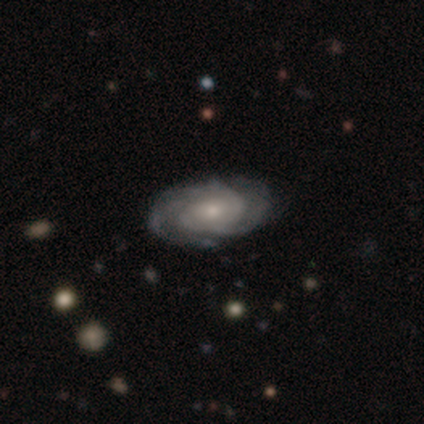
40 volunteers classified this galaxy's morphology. featured or disk 85%, smooth 8%, star or artifact 8%. Down the decision tree: edge-on disk — no (91%); bar — no (74%); spiral arms — yes (97%); spiral arm count — 2 (30%); spiral winding — tight (73%); bulge size — small (71%); merging — none (89%).